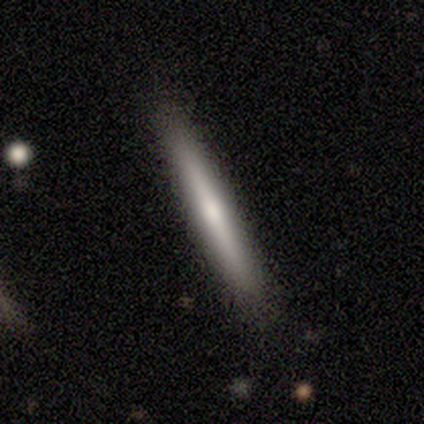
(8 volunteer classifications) Smooth or featured? smooth (62%)
How rounded? cigar-shaped (100%)
Merging? none (100%)